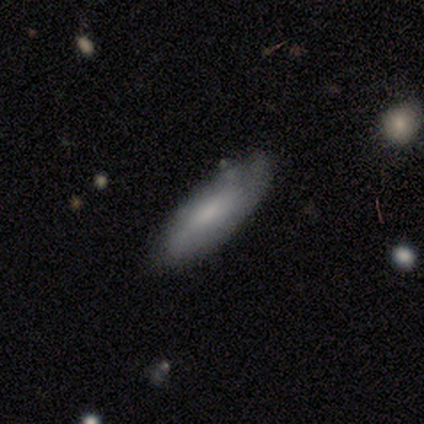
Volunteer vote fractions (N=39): smooth 64%, featured or disk 31%, star or artifact 5%. Down the decision tree: how rounded — in between (56%); merging — none (68%).